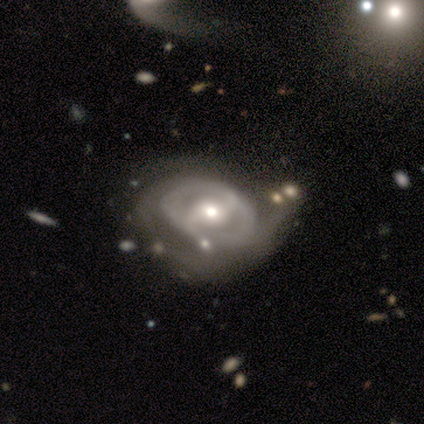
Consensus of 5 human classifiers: A featured or disk galaxy (80%) with a strong bar (50%), 2 (100%) medium (50%, tied with loose) spiral arms (50%, tied with no) and a moderate central bulge (50%).

Vote fractions:
- Smooth or featured? featured or disk: 80% / star or artifact: 20% / smooth: 0%
- Edge-on disk? no: 100% / yes: 0%
- Bar? strong: 50% / weak: 25% / no: 25%
- Spiral arms? yes: 50% (tied) / no: 50% (tied)
- Spiral winding? medium: 50% (tied) / loose: 50% (tied) / tight: 0%
- Spiral arm count? 2: 100% / 1: 0% / 3: 0% / 4: 0% / more than 4: 0% / can't tell: 0%
- Bulge size? moderate: 50% / large: 25% / small: 25% / dominant: 0% / none: 0%
- Merging? none: 75% / minor disturbance: 25% / major disturbance: 0% / merger: 0%